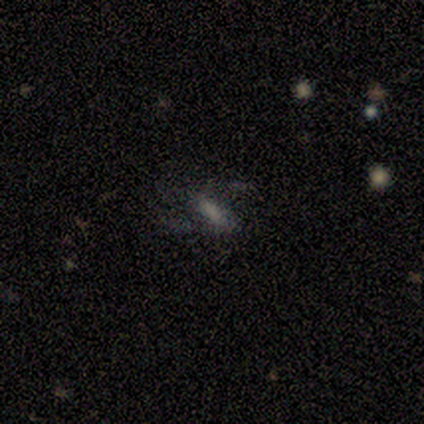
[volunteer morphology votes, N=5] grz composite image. It shows a featured or disk galaxy (80%) with no bar (75%), 2 (50%, tied with can't tell) medium (50%, tied with loose) spiral arms (50%, tied with no) and no central bulge (50%). Merging: major disturbance (50%).